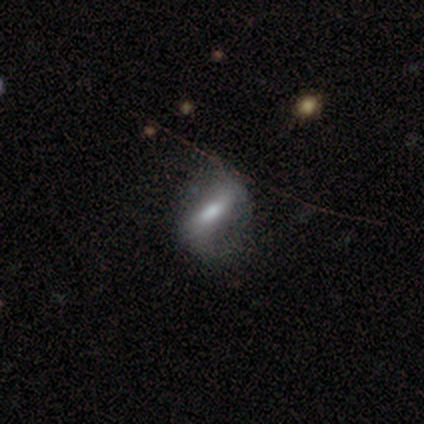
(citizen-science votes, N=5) smooth_or_featured: featured or disk (p=0.60) [alt: smooth p=0.20]
disk_edge_on: no (p=0.67) [alt: yes p=0.33]
bar: strong (p=0.50) [tied with: no p=0.50]
has_spiral_arms: yes (p=0.50) [tied with: no p=0.50]
spiral_winding: loose (p=1.00)
spiral_arm_count: 2 (p=1.00)
bulge_size: moderate (p=0.50) [tied with: small p=0.50]
merging: major disturbance (p=0.50) [alt: none p=0.25]